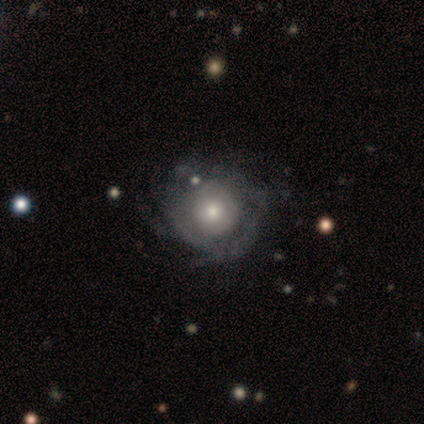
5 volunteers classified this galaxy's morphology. This is clearly a featured or disk galaxy (80%). It is clearly not viewed edge-on (100%). Bar: clearly no (100%). Spiral arm pattern: clearly yes (100%). Spiral arm count: possibly can't tell (50%). Spiral winding: likely tight (75%). Central bulge: possibly moderate (50%). Merging: likely none (60%).